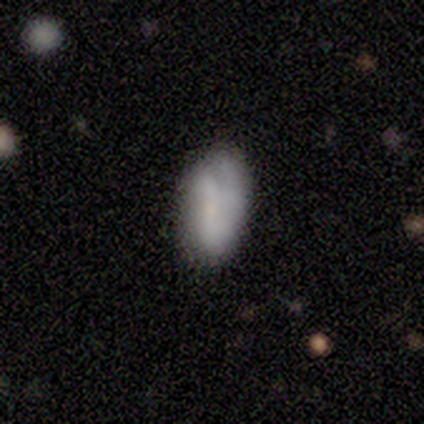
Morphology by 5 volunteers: Smooth or featured: smooth — 80% (featured or disk — 20%)
How rounded: in between — 100%
Merging: none — 60% (minor disturbance — 20%)